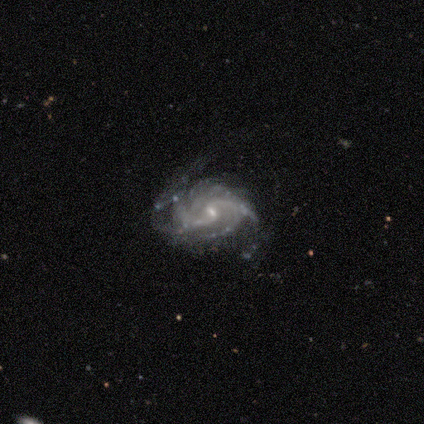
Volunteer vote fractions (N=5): Smooth or featured? featured or disk (100%)
Edge-on disk? no (100%)
Bar? weak (60%)
Spiral arms? yes (100%)
Spiral winding? tight (40%, tied with loose)
Spiral arm count? 2 (80%)
Bulge size? small (60%)
Merging? none (40%, tied with major disturbance)